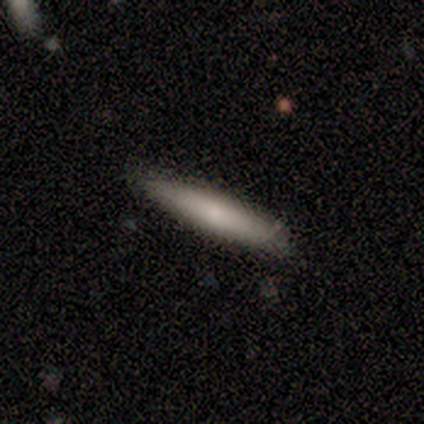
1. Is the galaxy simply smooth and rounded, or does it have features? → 80% smooth, 20% star or artifact, 0% featured or disk.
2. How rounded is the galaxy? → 100% cigar-shaped, 0% round, 0% in between.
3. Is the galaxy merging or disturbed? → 75% none, 25% minor disturbance, 0% major disturbance, 0% merger.